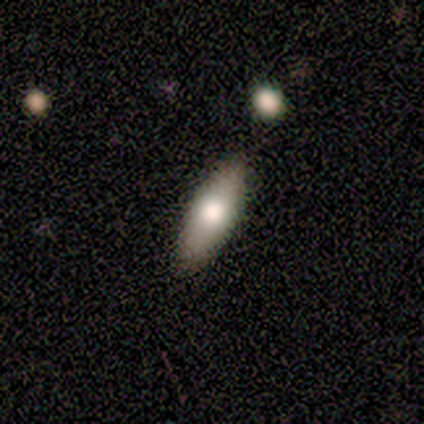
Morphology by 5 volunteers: Overall: smooth (60%; featured or disk 40%). How rounded: in between (67%; cigar-shaped 33%). Merging: none (80%).